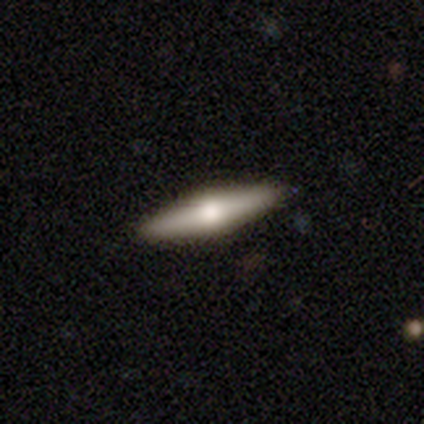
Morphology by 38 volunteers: A featured or disk galaxy (61%) viewed edge-on (96%) with a rounded central bulge (95%). Merging: none (94%).